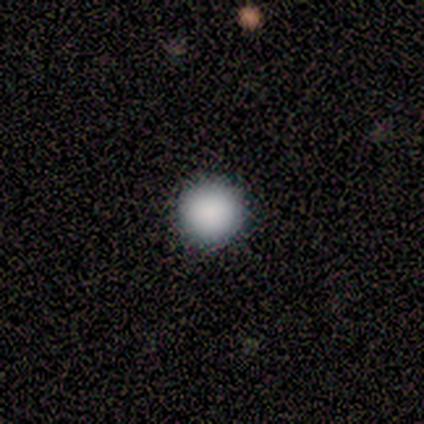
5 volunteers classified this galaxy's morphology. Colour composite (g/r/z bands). It shows a smooth galaxy with no disk features (100%) that is round (100%). Merging: none (100%).